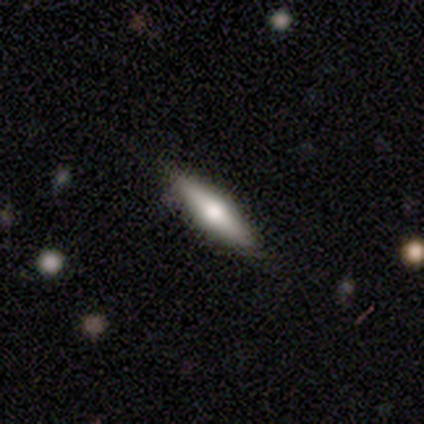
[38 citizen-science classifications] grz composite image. It shows a smooth galaxy with no disk features (61%) that is cigar-shaped (65%). Merging: none (92%).